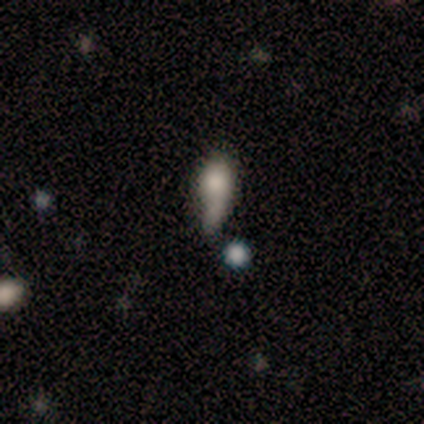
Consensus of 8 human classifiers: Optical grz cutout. It shows a smooth galaxy with no disk features (75%) that is in between round and cigar-shaped (67%). Merging: minor disturbance (43%).